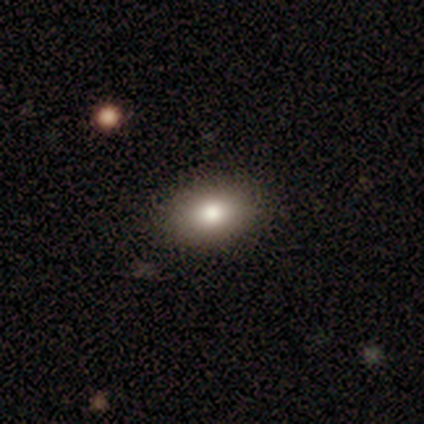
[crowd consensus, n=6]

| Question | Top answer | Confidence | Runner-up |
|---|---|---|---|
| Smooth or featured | smooth | 83% | star or artifact (17%) |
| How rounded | in between | 80% | round (20%) |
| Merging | none | 100% | — |